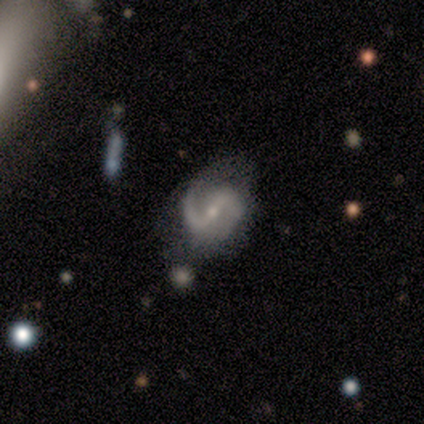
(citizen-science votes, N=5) Overall: featured or disk (100%). Edge-on disk: no (100%). Bar: strong (40%, tied with no). Spiral arms: yes (80%). Spiral arm count: 2 (100%). Spiral winding: loose (75%). Bulge size: small (80%). Merging: minor disturbance (60%; none 40%).